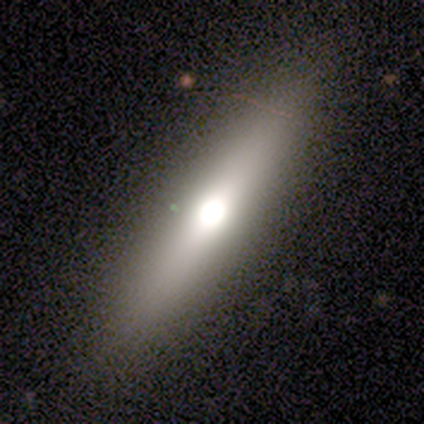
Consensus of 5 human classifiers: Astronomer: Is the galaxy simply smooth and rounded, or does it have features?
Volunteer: featured or disk — 80%.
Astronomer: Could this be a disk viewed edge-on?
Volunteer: yes — 100%.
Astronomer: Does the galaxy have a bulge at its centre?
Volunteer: rounded — 100%.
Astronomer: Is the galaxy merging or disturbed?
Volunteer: none — 80%.